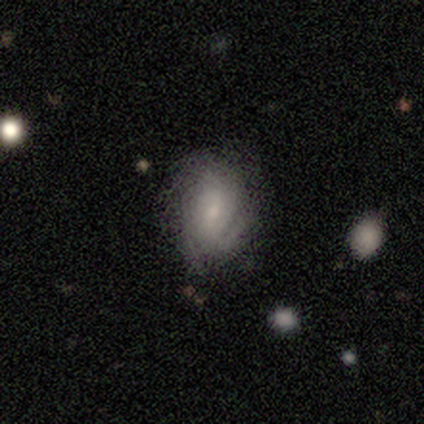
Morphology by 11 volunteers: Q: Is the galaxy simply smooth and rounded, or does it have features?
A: featured or disk — 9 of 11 (82%).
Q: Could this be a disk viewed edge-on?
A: no — 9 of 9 (100%).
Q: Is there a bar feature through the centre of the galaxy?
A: no — 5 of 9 (56%).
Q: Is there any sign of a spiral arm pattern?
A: yes — 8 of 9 (89%).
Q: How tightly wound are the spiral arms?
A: tight — 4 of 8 (50%).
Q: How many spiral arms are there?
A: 1 — 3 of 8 (38%, tied with can't tell).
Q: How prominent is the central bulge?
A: small — 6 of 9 (67%).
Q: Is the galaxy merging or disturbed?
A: none — 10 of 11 (91%).